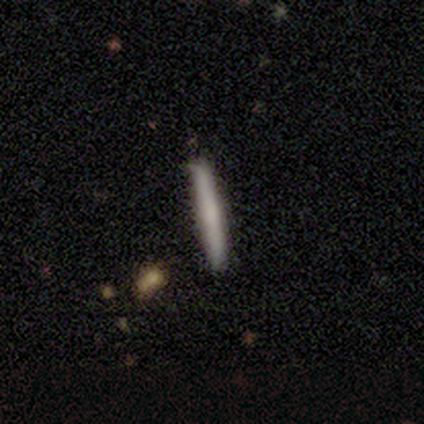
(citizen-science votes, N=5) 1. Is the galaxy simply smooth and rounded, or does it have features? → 60% smooth, 40% featured or disk, 0% star or artifact.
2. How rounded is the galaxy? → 100% cigar-shaped, 0% round, 0% in between.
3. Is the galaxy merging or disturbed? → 80% none, 20% minor disturbance, 0% major disturbance, 0% merger.